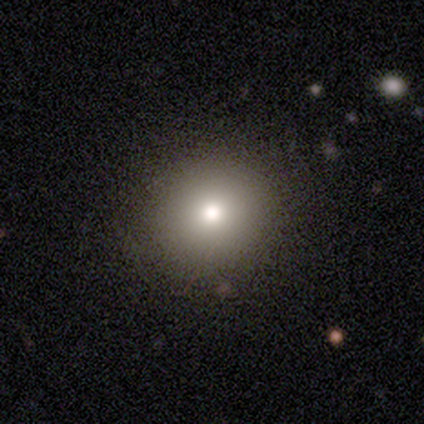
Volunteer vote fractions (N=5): This is likely a smooth galaxy (60%). How rounded: clearly round (100%). Merging: likely none (75%).